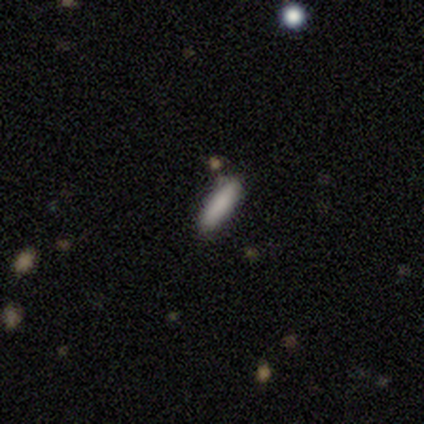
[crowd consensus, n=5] This appears to be a smooth galaxy with no disk features (80%) that is cigar-shaped (100%). Merging: none (100%).